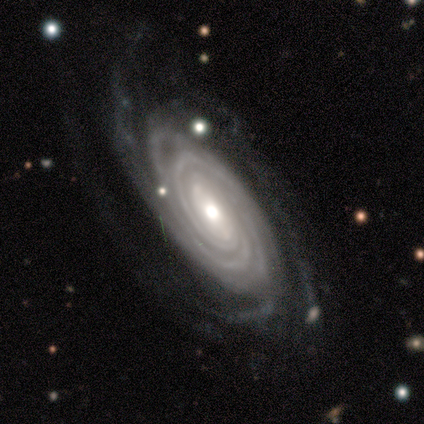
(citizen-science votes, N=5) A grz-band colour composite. It shows a featured or disk galaxy (100%) with a weak bar (40%, tied with no), more than 4 (80%) tight (100%) spiral arms (100%) and a moderate central bulge (40%, tied with small). Merging: none (100%).